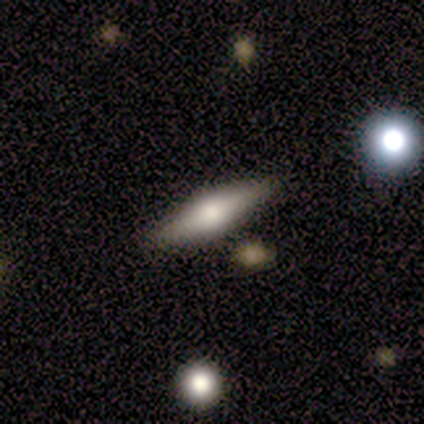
A featured or disk galaxy (55%) viewed edge-on (91%) with a rounded central bulge (90%).

Vote fractions:
- Smooth or featured? featured or disk: 55% / smooth: 45% / star or artifact: 0%
- Edge-on disk? yes: 91% / no: 9%
- Edge-on bulge? rounded: 90% / boxy: 5% / none: 5%
- Merging? none: 50% / minor disturbance: 5% / merger: 5% / major disturbance: 0%